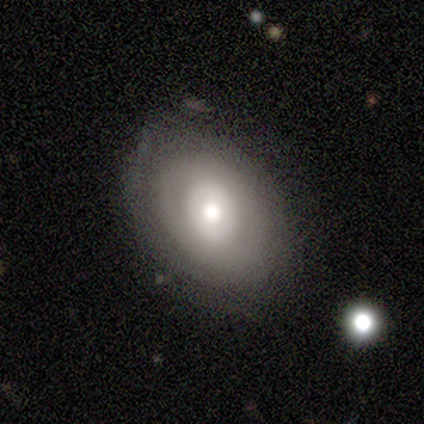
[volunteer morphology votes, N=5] featured or disk 60%, smooth 40%, star or artifact 0%. Down the decision tree: edge-on disk — no (100%); bar — no (67%); spiral arms — no (100%); bulge size — large (67%); merging — none (80%).